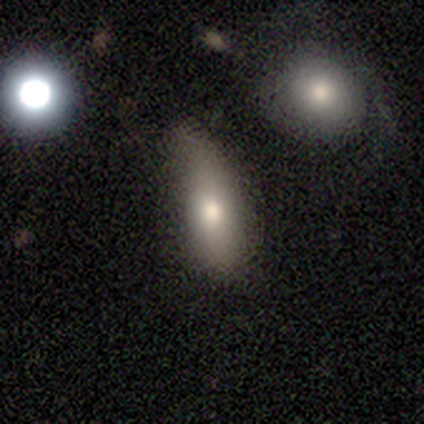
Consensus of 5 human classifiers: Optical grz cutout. It shows a smooth galaxy with no disk features (40%, tied with featured or disk) that is in between round and cigar-shaped (100%). Merging: none (75%).